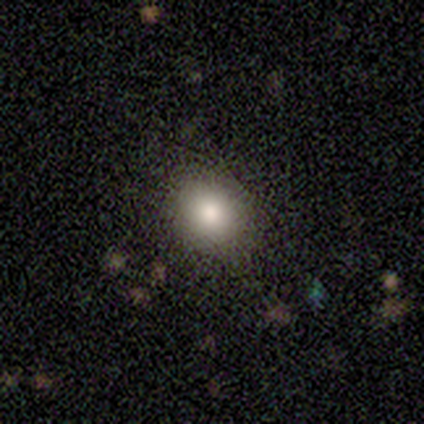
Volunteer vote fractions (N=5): Smooth or featured? 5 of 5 (100%) said smooth. How rounded? 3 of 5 (60%) said round. Merging? 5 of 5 (100%) said none.